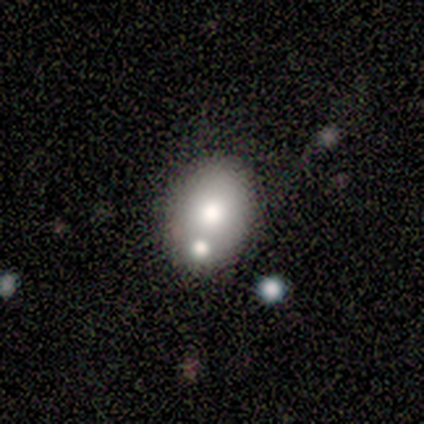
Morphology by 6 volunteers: A smooth galaxy with no disk features (83%) that is in between round and cigar-shaped (80%).

Vote fractions:
- Smooth or featured? smooth: 83% / star or artifact: 17% / featured or disk: 0%
- How rounded? in between: 80% / round: 20% / cigar-shaped: 0%
- Merging? none: 80% / minor disturbance: 20% / major disturbance: 0% / merger: 0%